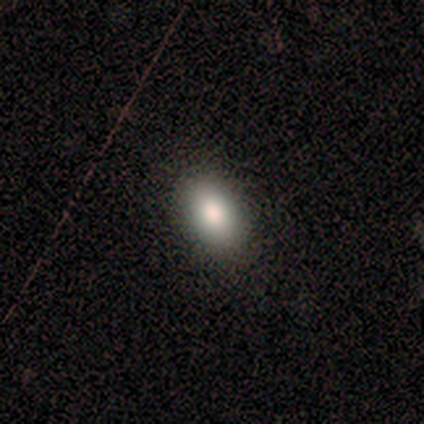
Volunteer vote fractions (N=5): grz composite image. It shows a smooth galaxy with no disk features (80%) that is in between round and cigar-shaped (100%). Merging: none (100%).